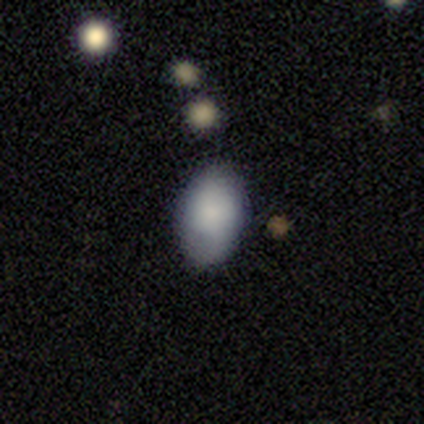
This appears to be a smooth galaxy with no disk features (90%) that is in between round and cigar-shaped (89%). Merging: none (70%).